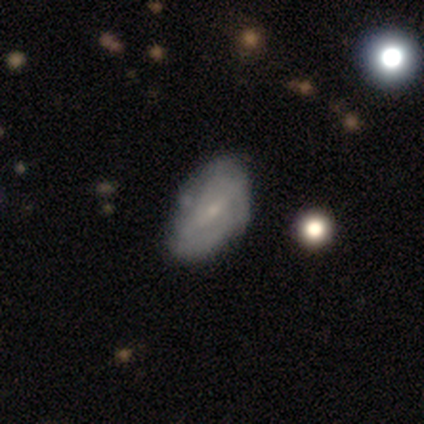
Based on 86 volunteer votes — Morphology: type=featured or disk (55%); edge-on=no (94%); bar=weak (59%); spiral arms=yes (70%); winding=tight (61%); arm count=2 (45%); bulge=small (84%); merging=none (49%).